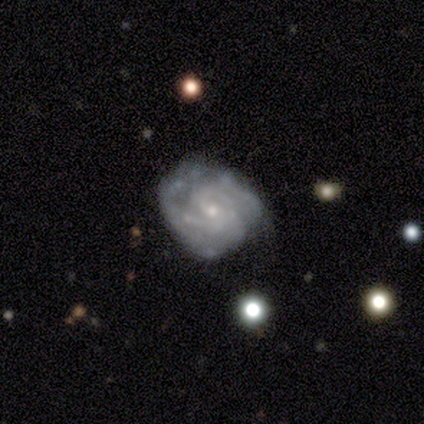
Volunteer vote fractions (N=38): Q: Smooth or featured?
A: featured or disk (92%); runner-up: smooth (8%)
Q: Edge-on disk?
A: no (97%); runner-up: yes (3%)
Q: Bar?
A: no (62%); runner-up: weak (29%)
Q: Spiral arms?
A: yes (91%); runner-up: no (9%)
Q: Spiral winding?
A: tight (61%); runner-up: medium (32%)
Q: Spiral arm count?
A: can't tell (55%); runner-up: 2 (23%)
Q: Bulge size?
A: small (76%); runner-up: moderate (24%)
Q: Merging?
A: none (71%); runner-up: minor disturbance (18%)